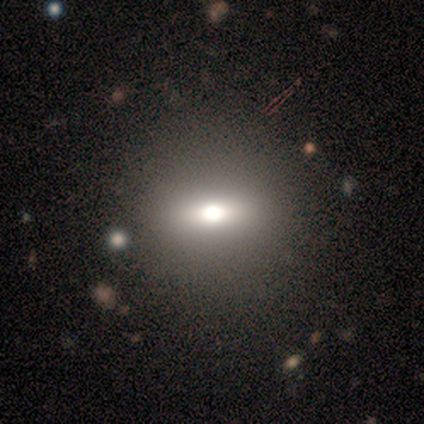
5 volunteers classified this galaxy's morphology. smooth 60%, featured or disk 40%, star or artifact 0%. Down the decision tree: how rounded — round (67%); merging — none (60%).